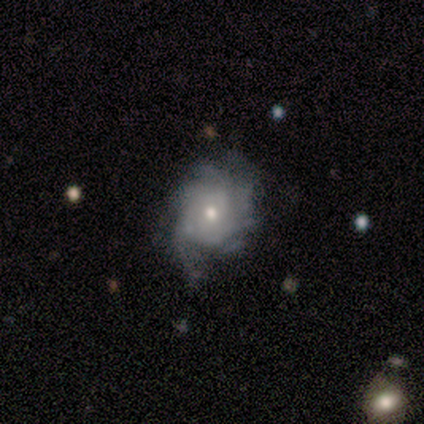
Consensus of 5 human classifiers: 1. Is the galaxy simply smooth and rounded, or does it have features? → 100% featured or disk, 0% smooth, 0% star or artifact.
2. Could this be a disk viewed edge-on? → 100% no, 0% yes.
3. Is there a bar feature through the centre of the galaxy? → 80% no, 20% weak, 0% strong.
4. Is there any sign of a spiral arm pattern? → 100% yes, 0% no.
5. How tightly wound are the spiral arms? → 60% tight, 40% medium, 0% loose.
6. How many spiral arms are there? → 80% can't tell, 20% more than 4, 0% 1, 0% 2, 0% 3, 0% 4.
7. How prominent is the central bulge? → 60% small, 40% moderate, 0% dominant, 0% large, 0% none.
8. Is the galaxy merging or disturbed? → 80% none, 20% minor disturbance, 0% major disturbance, 0% merger.